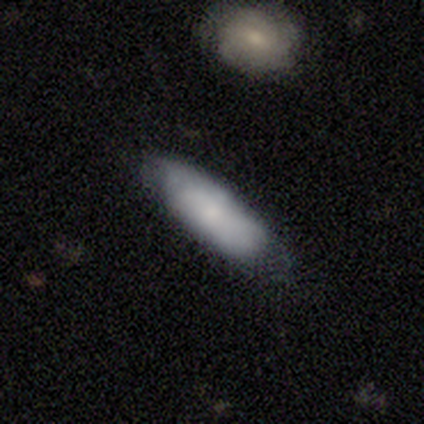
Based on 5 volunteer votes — Smooth or featured: smooth — 80% (featured or disk — 20%)
How rounded: in between — 100%
Merging: none — 80% (minor disturbance — 20%)